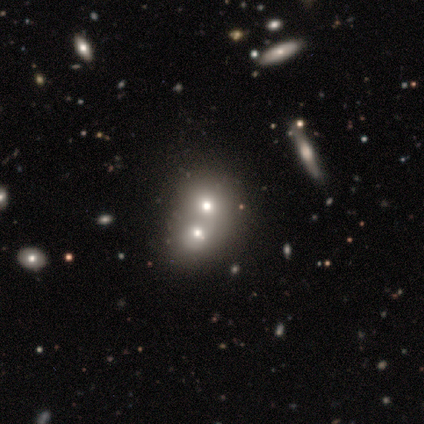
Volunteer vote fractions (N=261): A smooth galaxy with no disk features (48%) that is round (55%). Merging: merger (83%).